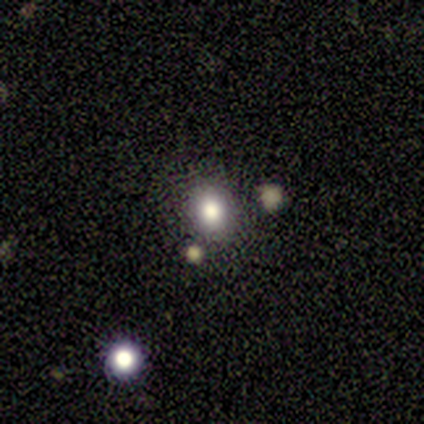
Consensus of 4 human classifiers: A smooth galaxy with no disk features (75%) that is round (67%).

Vote fractions:
- Smooth or featured? smooth: 75% / featured or disk: 25% / star or artifact: 0%
- How rounded? round: 67% / in between: 33% / cigar-shaped: 0%
- Merging? none: 50% (tied) / merger: 50% (tied) / minor disturbance: 0% / major disturbance: 0%